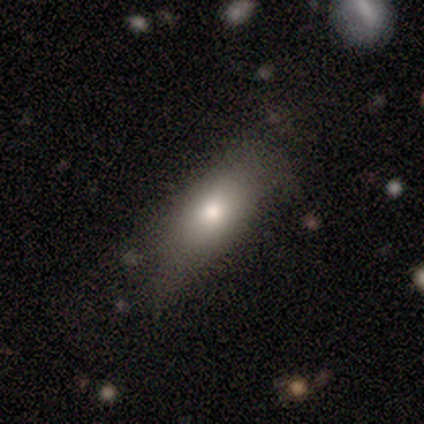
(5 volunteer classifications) smooth-or-featured: smooth: 100% | featured or disk: 0% | star or artifact: 0%
  how-rounded: in between: 80% | cigar-shaped: 20% | round: 0%
  merging: none: 80% | major disturbance: 20% | minor disturbance: 0% | merger: 0%